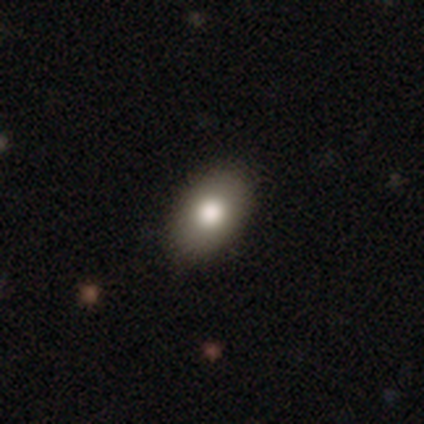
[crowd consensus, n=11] Morphology: type=smooth (73%); roundness=in between (88%); merging=none (89%).